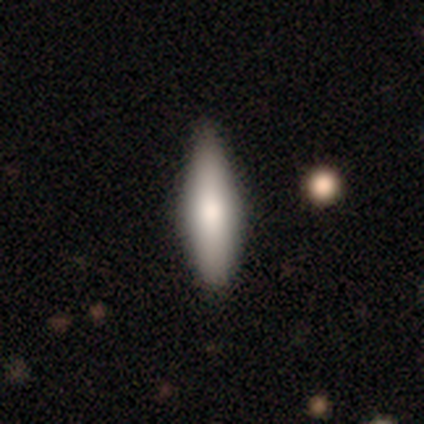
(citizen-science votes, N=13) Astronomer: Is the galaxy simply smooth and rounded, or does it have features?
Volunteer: smooth — 69%.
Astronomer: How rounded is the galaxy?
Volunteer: cigar-shaped — 89%.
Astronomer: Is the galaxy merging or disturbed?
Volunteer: none — 92%.